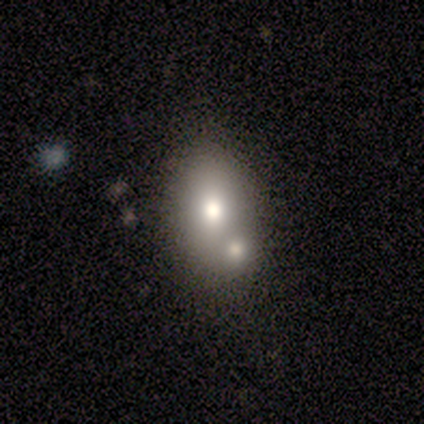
Overall: smooth (64%; featured or disk 36%). How rounded: in between (86%). Merging: merger (45%; none 36%).